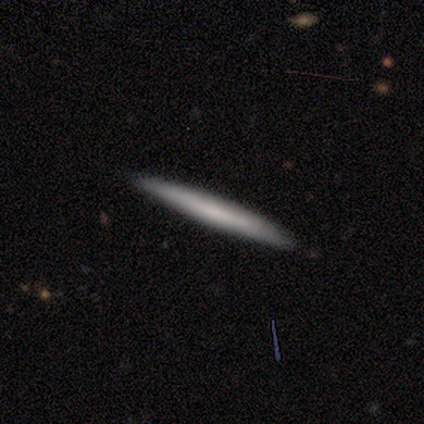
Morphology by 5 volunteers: Smooth or featured? 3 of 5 (60%) said smooth. How rounded? 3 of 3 (100%) said cigar-shaped. Merging? 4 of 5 (80%) said none.